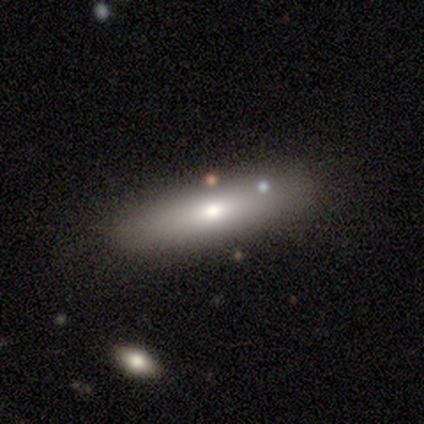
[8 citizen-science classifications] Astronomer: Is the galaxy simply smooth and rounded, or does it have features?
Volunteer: smooth — 88%.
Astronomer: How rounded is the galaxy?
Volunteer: cigar-shaped — 57% (runner-up: in between, 43%).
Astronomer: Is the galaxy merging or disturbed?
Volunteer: none — 50%, tied with minor disturbance at 50%.